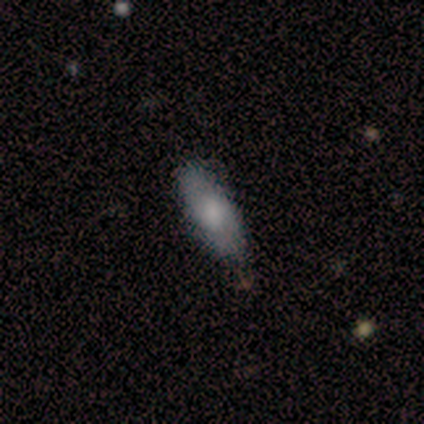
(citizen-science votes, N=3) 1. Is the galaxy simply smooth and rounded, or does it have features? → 67% smooth, 33% featured or disk, 0% star or artifact.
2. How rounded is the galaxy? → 100% cigar-shaped, 0% round, 0% in between.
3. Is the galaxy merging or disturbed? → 100% none, 0% minor disturbance, 0% major disturbance, 0% merger.